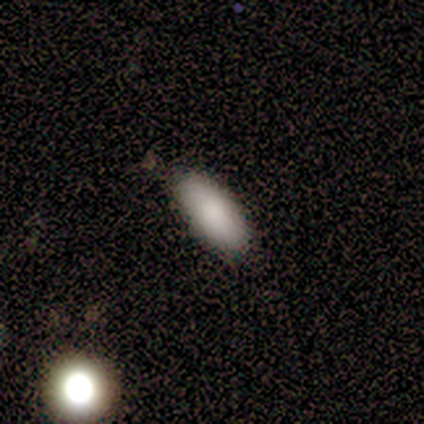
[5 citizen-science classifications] A smooth galaxy with no disk features (100%) that is in between round and cigar-shaped (80%).

Vote fractions:
- Smooth or featured? smooth: 100% / featured or disk: 0% / star or artifact: 0%
- How rounded? in between: 80% / cigar-shaped: 20% / round: 0%
- Merging? none: 60% / minor disturbance: 40% / major disturbance: 0% / merger: 0%